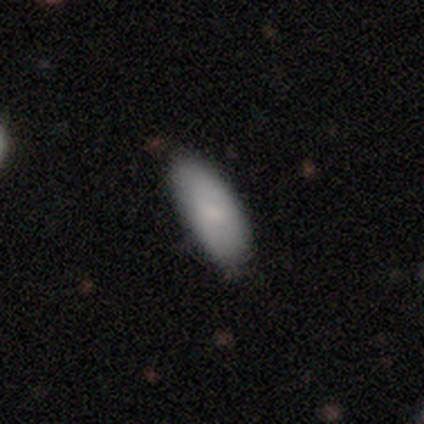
A smooth galaxy with no disk features (75%) that is in between round and cigar-shaped (100%).

Vote fractions:
- Smooth or featured? smooth: 75% / featured or disk: 25% / star or artifact: 0%
- How rounded? in between: 100% / round: 0% / cigar-shaped: 0%
- Merging? none: 50% (tied) / minor disturbance: 50% (tied) / major disturbance: 0% / merger: 0%